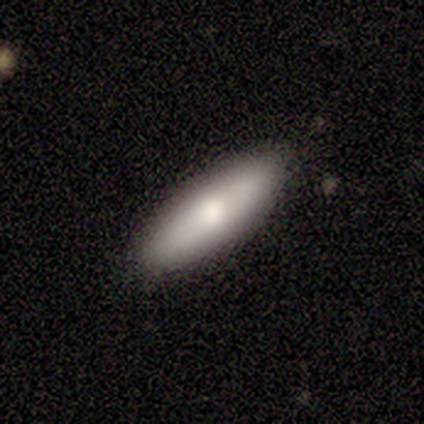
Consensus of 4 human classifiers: smooth_or_featured: smooth (p=0.75) [alt: featured or disk p=0.25]
how_rounded: in between (p=0.67) [alt: cigar-shaped p=0.33]
merging: none (p=1.00)